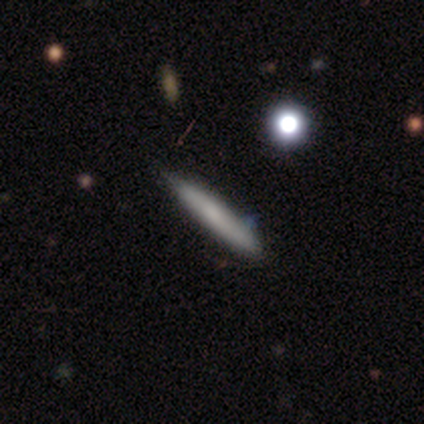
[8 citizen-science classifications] This is likely a smooth galaxy (75%). How rounded: clearly cigar-shaped (100%). Merging: clearly none (100%).